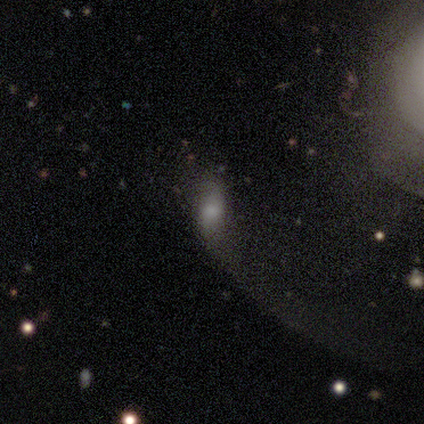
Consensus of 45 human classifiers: Smooth or featured? 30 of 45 (67%) said smooth. How rounded? 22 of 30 (73%) said in between. Merging? 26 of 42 (62%) said major disturbance.